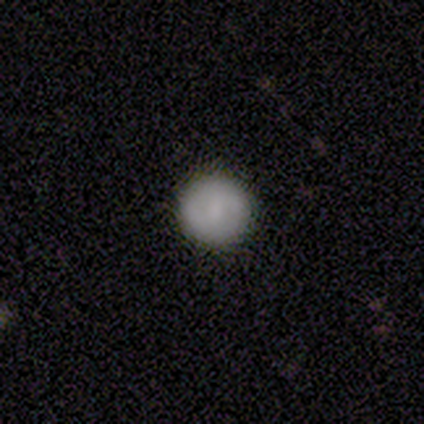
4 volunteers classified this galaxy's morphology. Overall: smooth (50%, tied with featured or disk). How rounded: round (100%). Merging: none (100%).